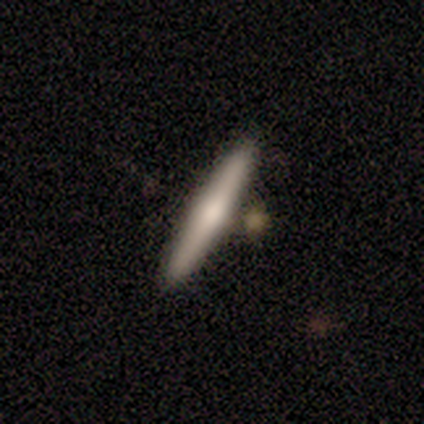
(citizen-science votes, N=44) smooth 64%, featured or disk 36%, star or artifact 0%. Down the decision tree: how rounded — cigar-shaped (96%); merging — none (82%).